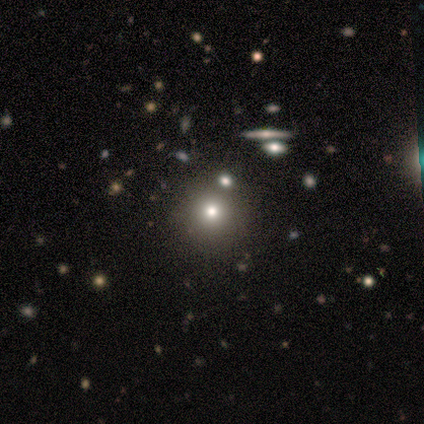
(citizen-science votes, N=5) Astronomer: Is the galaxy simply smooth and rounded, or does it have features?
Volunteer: star or artifact — 60% (runner-up: smooth, 40%).